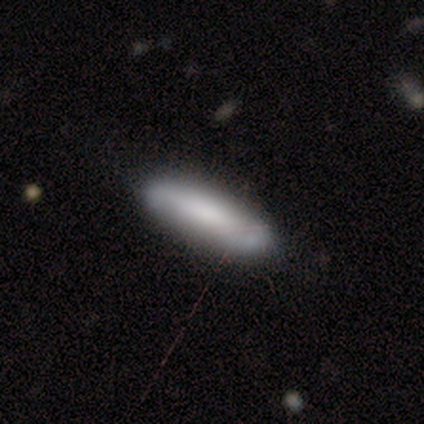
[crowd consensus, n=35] Smooth or featured? smooth (66%)
How rounded? cigar-shaped (57%)
Merging? none (90%)